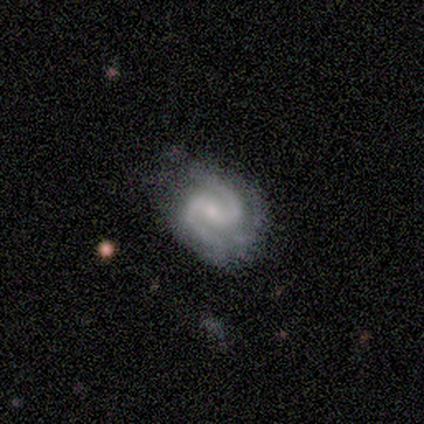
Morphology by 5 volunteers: This appears to be a featured or disk galaxy (100%) with a strong bar (60%), 2 (100%) tight (60%) spiral arms (100%) and a small central bulge (60%). Merging: minor disturbance (60%).